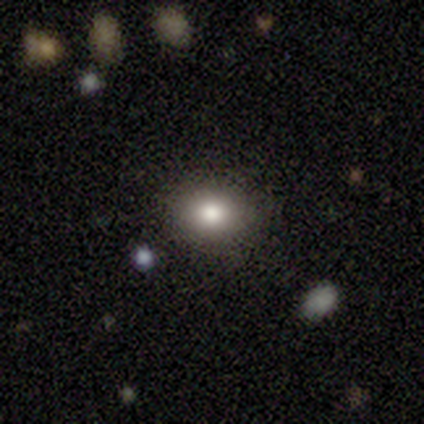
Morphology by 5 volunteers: This is marginally a smooth galaxy (40%, tied with star or artifact). How rounded: clearly round (100%). Merging: likely minor disturbance (67%).